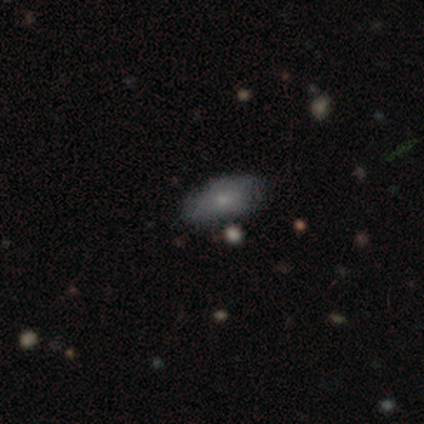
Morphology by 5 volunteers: This is clearly a smooth galaxy (80%). How rounded: clearly in between (100%). Merging: likely none (75%).